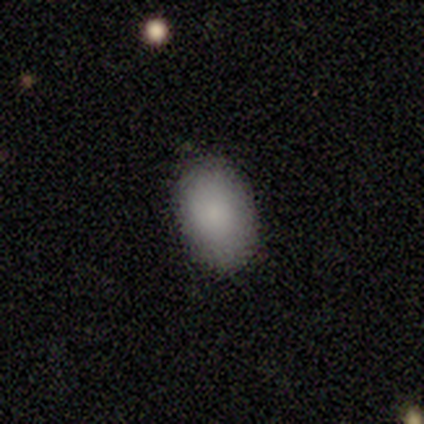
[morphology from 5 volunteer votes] Smooth or featured?
  - smooth: 80% *
  - featured or disk: 20%
  - star or artifact: 0%
How rounded?
  - round: 50% * (tied)
  - in between: 50% * (tied)
  - cigar-shaped: 0%
Merging?
  - none: 80% *
  - major disturbance: 20%
  - minor disturbance: 0%
  - merger: 0%